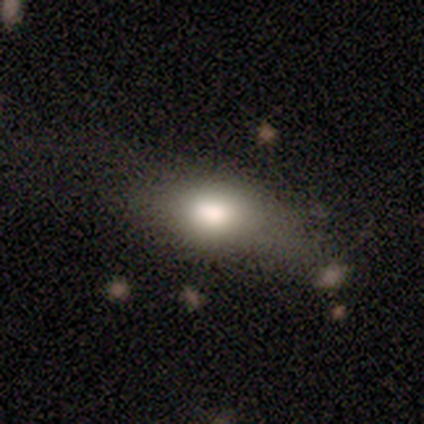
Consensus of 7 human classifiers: A smooth galaxy with no disk features (86%) that is in between round and cigar-shaped (83%). Merging: minor disturbance (57%).